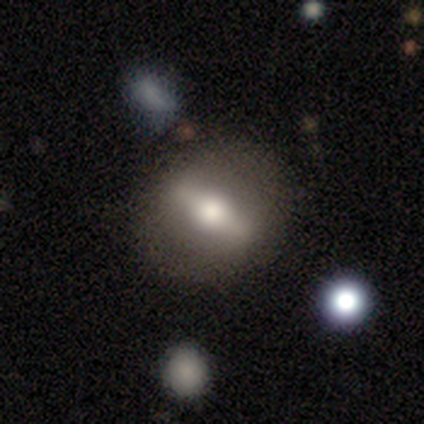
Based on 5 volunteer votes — Morphology: type=featured or disk (100%); edge-on=yes (60%); edge-on bulge=rounded (100%); merging=minor disturbance (80%).